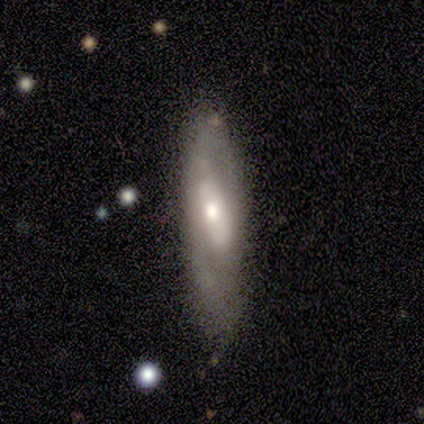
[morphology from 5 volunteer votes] Q: Smooth or featured?
A: featured or disk (60%); runner-up: smooth (40%)
Q: Edge-on disk?
A: no (67%); runner-up: yes (33%)
Q: Bar?
A: weak (100%)
Q: Spiral arms?
A: yes (100%)
Q: Spiral winding?
A: tight (50%); tied with: loose (50%)
Q: Spiral arm count?
A: 2 (100%)
Q: Bulge size?
A: moderate (100%)
Q: Merging?
A: none (80%); runner-up: minor disturbance (20%)